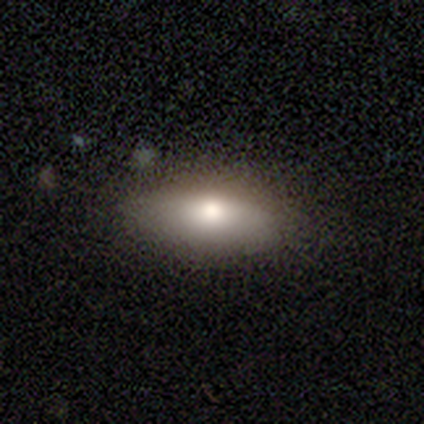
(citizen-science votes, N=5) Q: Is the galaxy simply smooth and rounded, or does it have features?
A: smooth — 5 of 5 (100%).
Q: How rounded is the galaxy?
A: in between — 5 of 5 (100%).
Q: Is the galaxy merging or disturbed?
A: none — 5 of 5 (100%).